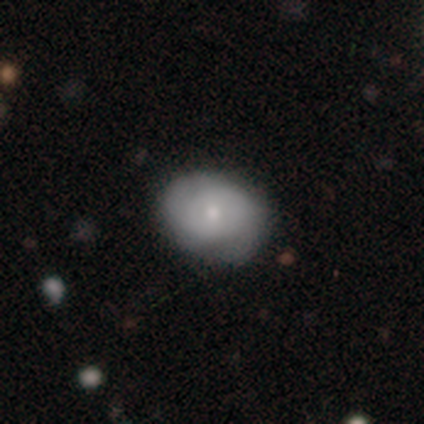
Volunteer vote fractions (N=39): Morphology: type=smooth (56%); roundness=round (50%, tied with in between); merging=none (40%).